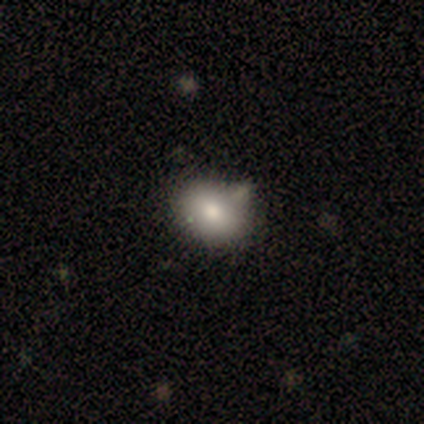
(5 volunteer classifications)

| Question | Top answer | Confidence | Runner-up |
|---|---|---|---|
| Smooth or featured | smooth | 100% | — |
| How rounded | round | 60% | in between (40%) |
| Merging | none | 80% | minor disturbance (20%) |